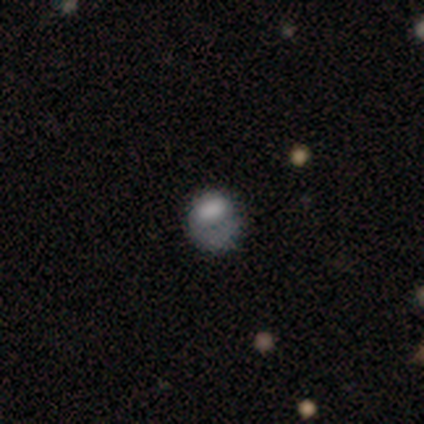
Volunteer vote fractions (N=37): Morphology: type=featured or disk (49%); edge-on=no (94%); bar=no (82%); spiral arms=no (65%); bulge=none (41%); merging=none (52%).